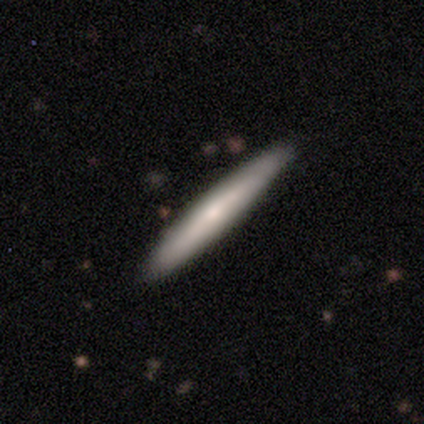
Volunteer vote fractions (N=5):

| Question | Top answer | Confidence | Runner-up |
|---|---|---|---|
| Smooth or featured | smooth | 100% | — |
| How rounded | cigar-shaped | 100% | — |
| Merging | none | 100% | — |